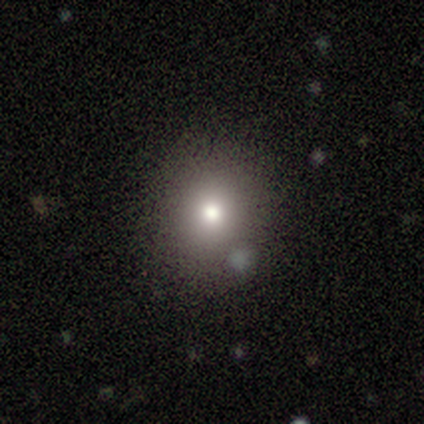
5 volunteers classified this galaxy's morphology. Smooth or featured? 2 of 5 (40%, tied with featured or disk) said smooth. How rounded? 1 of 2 (50%, tied with in between) said round. Merging? 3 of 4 (75%) said none.